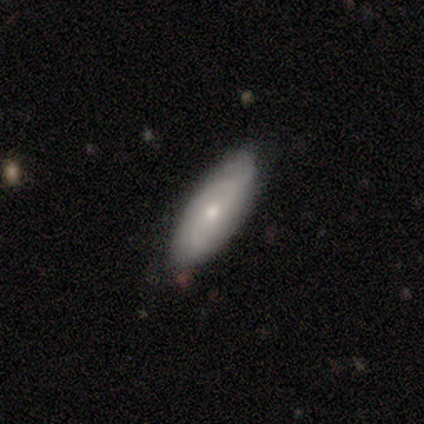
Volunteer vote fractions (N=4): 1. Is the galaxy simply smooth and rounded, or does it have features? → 75% featured or disk, 25% smooth, 0% star or artifact.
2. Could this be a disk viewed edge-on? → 100% no, 0% yes.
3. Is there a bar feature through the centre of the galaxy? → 67% no, 33% weak, 0% strong.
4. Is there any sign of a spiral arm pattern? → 67% yes, 33% no.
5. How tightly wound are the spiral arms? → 50% tight (tied), 50% medium (tied), 0% loose.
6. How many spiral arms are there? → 50% 2 (tied), 50% can't tell (tied), 0% 1, 0% 3, 0% 4, 0% more than 4.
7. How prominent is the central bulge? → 67% moderate, 33% small, 0% dominant, 0% large, 0% none.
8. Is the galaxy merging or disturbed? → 100% none, 0% minor disturbance, 0% major disturbance, 0% merger.